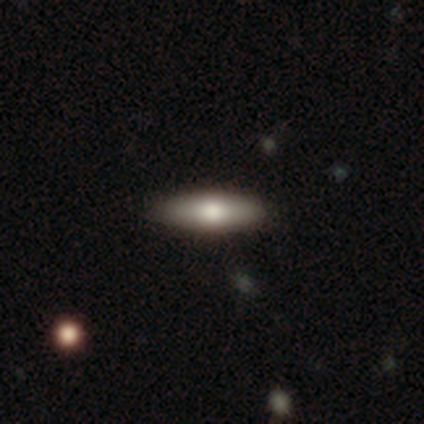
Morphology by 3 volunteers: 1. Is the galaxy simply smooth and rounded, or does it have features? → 100% featured or disk, 0% smooth, 0% star or artifact.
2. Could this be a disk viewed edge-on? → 67% yes, 33% no.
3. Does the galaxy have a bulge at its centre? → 100% rounded, 0% boxy, 0% none.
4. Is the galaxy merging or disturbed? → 100% none, 0% minor disturbance, 0% major disturbance, 0% merger.